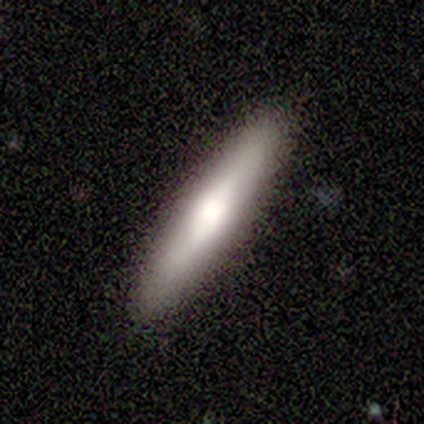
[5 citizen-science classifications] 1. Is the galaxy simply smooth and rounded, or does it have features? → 100% featured or disk, 0% smooth, 0% star or artifact.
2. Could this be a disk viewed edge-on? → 100% yes, 0% no.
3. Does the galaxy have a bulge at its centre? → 100% rounded, 0% boxy, 0% none.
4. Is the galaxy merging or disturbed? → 100% none, 0% minor disturbance, 0% major disturbance, 0% merger.